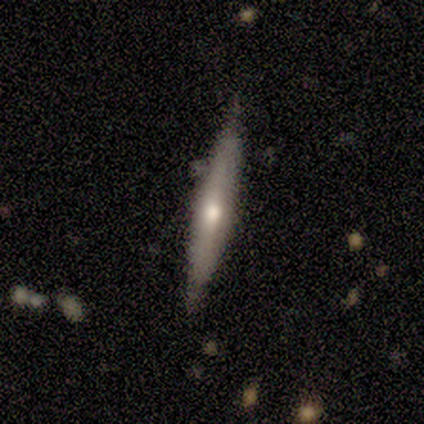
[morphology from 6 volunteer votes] smooth_or_featured: smooth (p=0.50) [tied with: featured or disk p=0.50]
how_rounded: cigar-shaped (p=1.00)
merging: none (p=0.83) [alt: minor disturbance p=0.17]